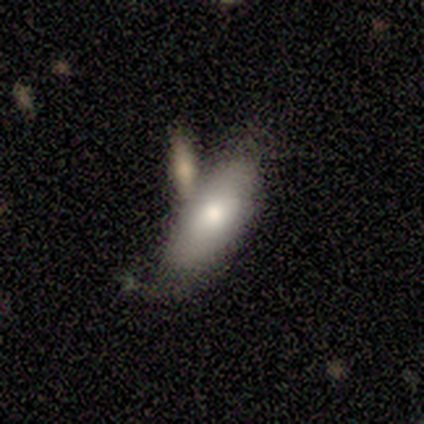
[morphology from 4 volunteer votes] Smooth or featured? 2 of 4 (50%, tied with featured or disk) said smooth. How rounded? 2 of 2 (100%) said in between. Merging? 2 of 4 (50%, tied with merger) said none.